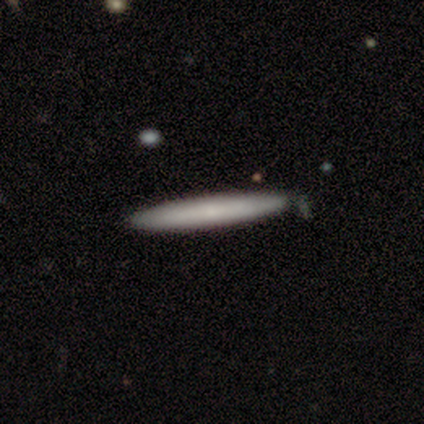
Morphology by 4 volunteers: Volunteers were most divided on "merging": none: 75%, minor disturbance: 25%, major disturbance: 0%, merger: 0%. More confident: smooth or featured — smooth (100%); how rounded — cigar-shaped (100%).